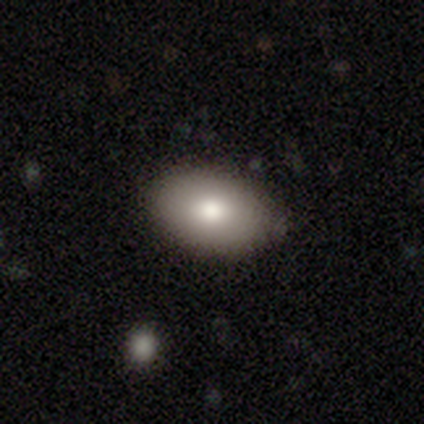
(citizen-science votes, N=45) smooth_or_featured: smooth (p=0.89) [alt: featured or disk p=0.09]
how_rounded: in between (p=0.90) [alt: round p=0.10]
merging: none (p=0.86) [alt: minor disturbance p=0.14]